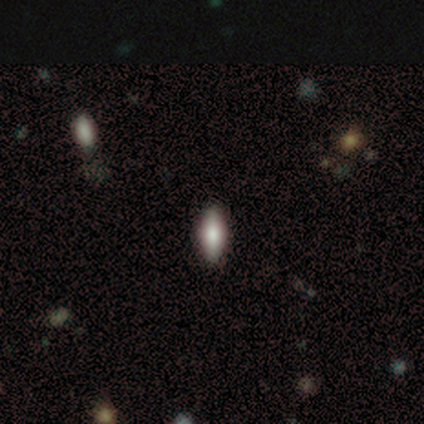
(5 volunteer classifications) This is clearly a smooth galaxy (80%). How rounded: likely cigar-shaped (75%). Merging: clearly none (100%).